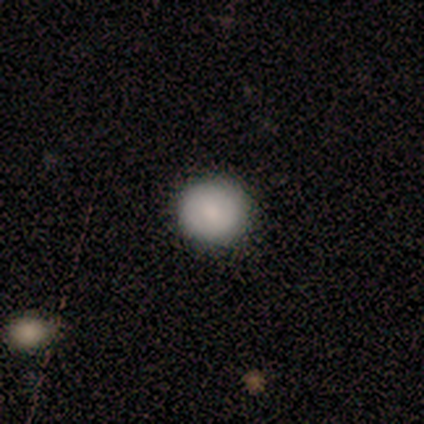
Smooth or featured? smooth (100%)
How rounded? round (75%)
Merging? none (75%)